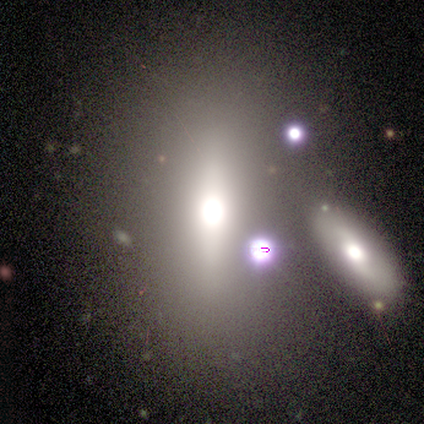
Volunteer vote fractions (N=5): Smooth or featured? featured or disk (100%)
Edge-on disk? no (60%)
Bar? strong (67%)
Spiral arms? no (100%)
Bulge size? large (67%)
Merging? none (60%)